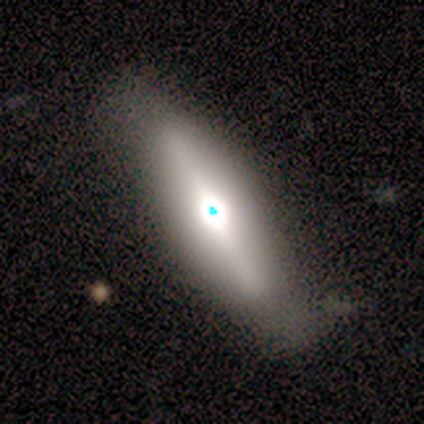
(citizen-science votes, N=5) A featured or disk galaxy (80%) viewed edge-on (100%) with a rounded central bulge (100%).

Vote fractions:
- Smooth or featured? featured or disk: 80% / smooth: 20% / star or artifact: 0%
- Edge-on disk? yes: 100% / no: 0%
- Edge-on bulge? rounded: 100% / boxy: 0% / none: 0%
- Merging? none: 100% / minor disturbance: 0% / major disturbance: 0% / merger: 0%